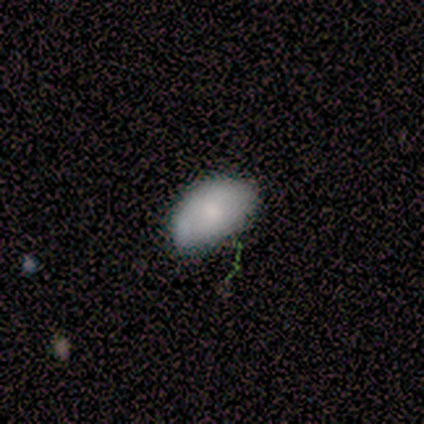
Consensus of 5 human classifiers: smooth-or-featured: smooth: 60% | featured or disk: 40% | star or artifact: 0%
  how-rounded: in between: 100% | round: 0% | cigar-shaped: 0%
  merging: none: 80% | minor disturbance: 20% | major disturbance: 0% | merger: 0%